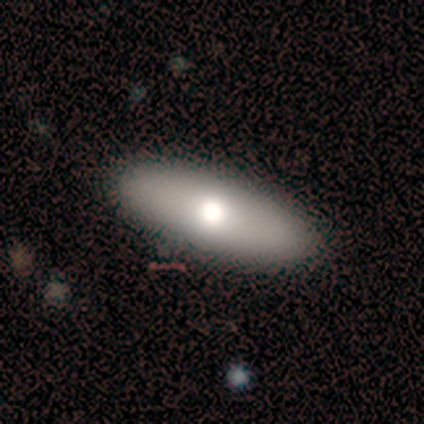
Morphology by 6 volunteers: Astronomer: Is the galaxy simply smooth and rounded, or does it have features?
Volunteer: smooth — 83%.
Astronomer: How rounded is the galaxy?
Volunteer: in between — 80%.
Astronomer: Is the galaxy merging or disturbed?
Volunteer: none — 100%.